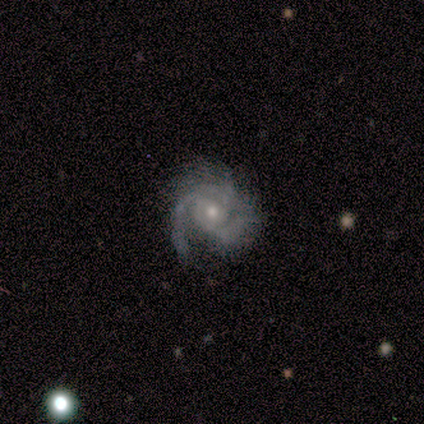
smooth-or-featured: featured or disk: 80% | smooth: 20% | star or artifact: 0%
  disk-edge-on: no: 100% | yes: 0%
    bar: no: 75% | weak: 25% | strong: 0%
    has-spiral-arms: yes: 100% | no: 0%
      spiral-winding: medium: 50% | tight: 25% | loose: 25%
      spiral-arm-count: 3: 50% | 1: 25% | can't tell: 25% | 2: 0% | 4: 0% | more than 4: 0%
    bulge-size: small: 75% | moderate: 25% | dominant: 0% | large: 0% | none: 0%
  merging: none: 80% | major disturbance: 20% | minor disturbance: 0% | merger: 0%